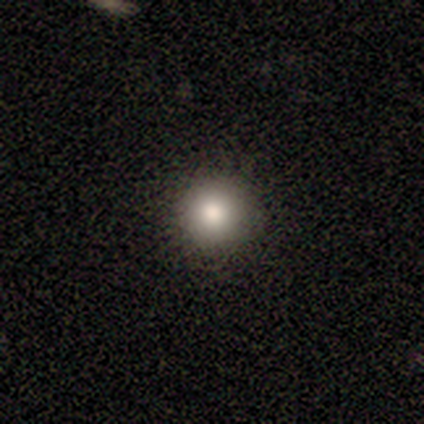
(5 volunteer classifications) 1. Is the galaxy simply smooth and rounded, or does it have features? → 100% smooth, 0% featured or disk, 0% star or artifact.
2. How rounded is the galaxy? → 100% round, 0% in between, 0% cigar-shaped.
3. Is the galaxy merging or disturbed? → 100% none, 0% minor disturbance, 0% major disturbance, 0% merger.